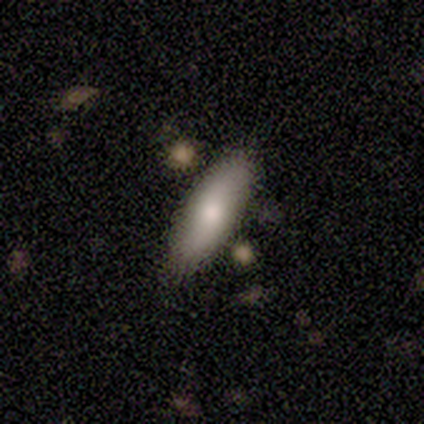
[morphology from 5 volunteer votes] Smooth or featured?
  - smooth: 100% *
  - featured or disk: 0%
  - star or artifact: 0%
How rounded?
  - cigar-shaped: 60% *
  - in between: 40%
  - round: 0%
Merging?
  - none: 100% *
  - minor disturbance: 0%
  - major disturbance: 0%
  - merger: 0%